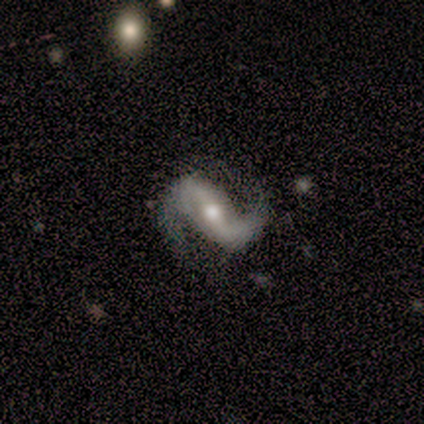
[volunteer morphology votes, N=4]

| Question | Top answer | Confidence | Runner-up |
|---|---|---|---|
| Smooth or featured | featured or disk | 75% | smooth (25%) |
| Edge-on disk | no | 67% | yes (33%) |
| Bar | strong | 50% | tied: no (50%) |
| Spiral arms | yes | 100% | — |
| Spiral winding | loose | 100% | — |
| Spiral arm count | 2 | 100% | — |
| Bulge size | moderate | 100% | — |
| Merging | none | 75% | major disturbance (25%) |